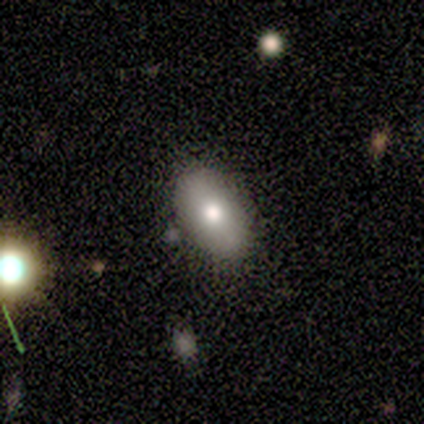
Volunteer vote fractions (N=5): smooth 60%, featured or disk 20%, star or artifact 20%. Down the decision tree: how rounded — in between (100%); merging — none (50%).